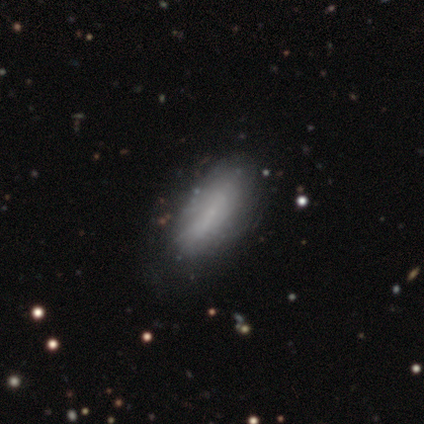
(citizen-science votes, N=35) Smooth or featured? smooth (71%)
How rounded? in between (80%)
Merging? none (50%)